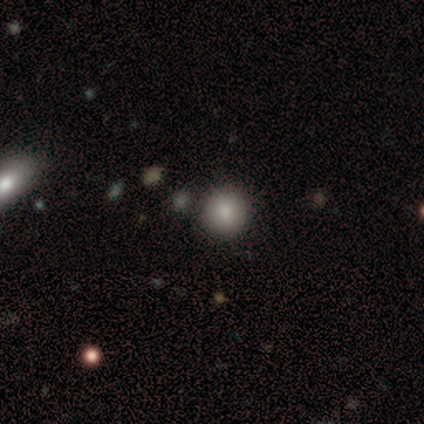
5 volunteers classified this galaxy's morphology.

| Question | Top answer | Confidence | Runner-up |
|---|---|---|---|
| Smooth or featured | smooth | 100% | — |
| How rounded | round | 100% | — |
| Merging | none | 100% | — |